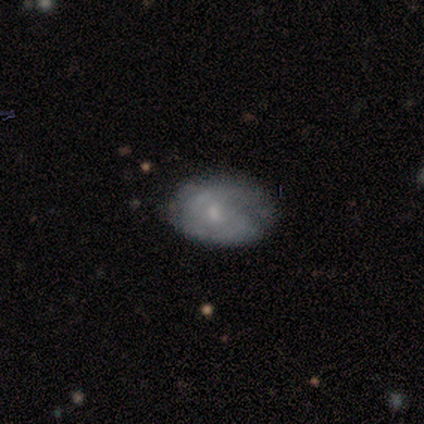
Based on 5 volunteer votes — smooth 80%, featured or disk 20%, star or artifact 0%. Down the decision tree: how rounded — in between (75%); merging — none (60%).